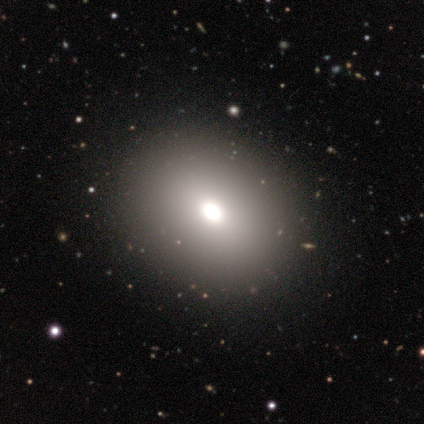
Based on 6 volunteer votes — Volunteers were most divided on "smooth or featured": smooth: 50%, star or artifact: 33%, featured or disk: 17%. More confident: merging — none (100%); how rounded — in between (67%).